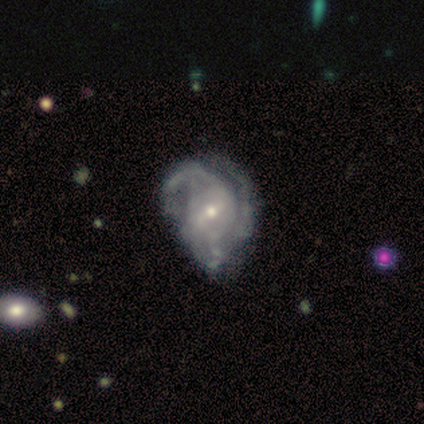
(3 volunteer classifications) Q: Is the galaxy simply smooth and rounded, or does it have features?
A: featured or disk — 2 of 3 (67%).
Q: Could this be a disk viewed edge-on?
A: no — 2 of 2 (100%).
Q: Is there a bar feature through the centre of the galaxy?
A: weak — 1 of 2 (50%, tied with no).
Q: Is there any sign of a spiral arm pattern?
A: yes — 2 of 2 (100%).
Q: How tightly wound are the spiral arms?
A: tight — 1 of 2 (50%, tied with medium).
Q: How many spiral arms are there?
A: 1 — 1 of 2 (50%, tied with can't tell).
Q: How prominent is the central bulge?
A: moderate — 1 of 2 (50%, tied with small).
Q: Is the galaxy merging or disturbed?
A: minor disturbance — 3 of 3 (100%).